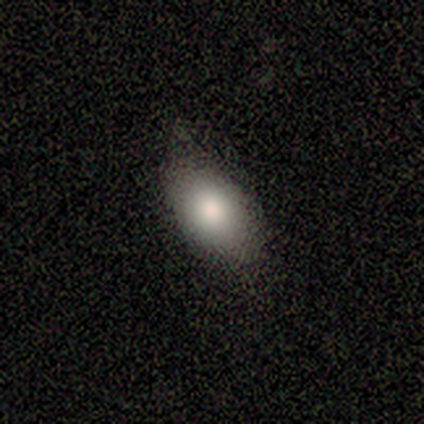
A smooth galaxy with no disk features (80%) that is in between round and cigar-shaped (75%). Merging: minor disturbance (80%).